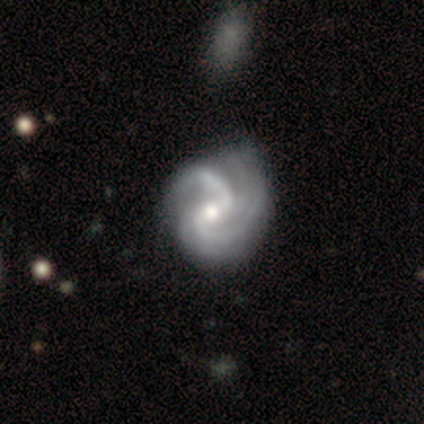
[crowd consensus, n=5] Overall: featured or disk (100%). Edge-on disk: no (100%). Bar: weak (60%; no 40%). Spiral arms: yes (80%). Spiral arm count: 4 (75%). Spiral winding: tight (50%, tied with medium). Bulge size: small (60%; moderate 40%). Merging: none (60%; minor disturbance 20%).